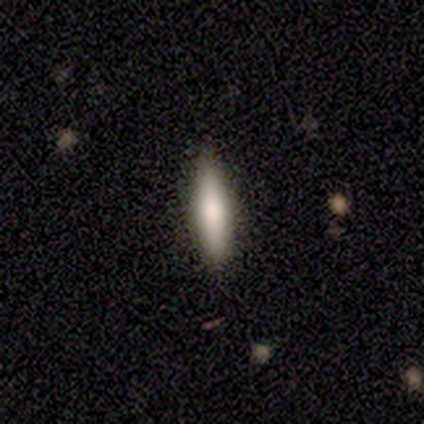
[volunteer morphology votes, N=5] type=featured or disk (60%); edge-on=yes (100%); edge-on bulge=rounded (67%); merging=none (100%).